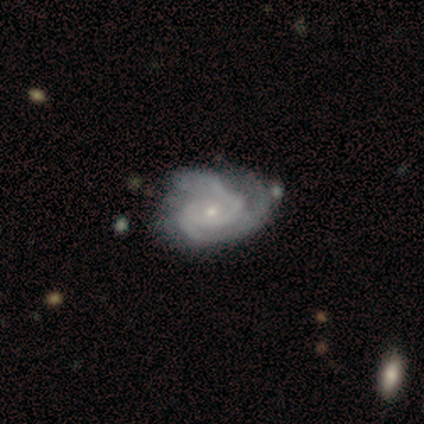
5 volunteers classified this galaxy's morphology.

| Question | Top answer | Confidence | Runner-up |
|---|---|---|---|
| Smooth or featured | featured or disk | 100% | — |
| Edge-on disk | no | 100% | — |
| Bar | no | 80% | strong (20%) |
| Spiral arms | yes | 100% | — |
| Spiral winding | tight | 60% | medium (40%) |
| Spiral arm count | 2 | 40% | tied: 3 (40%) |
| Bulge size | small | 60% | moderate (40%) |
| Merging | none | 60% | minor disturbance (20%) |